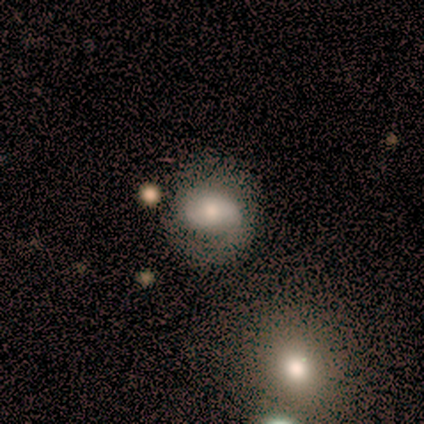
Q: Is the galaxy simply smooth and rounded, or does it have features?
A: smooth — 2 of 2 (100%).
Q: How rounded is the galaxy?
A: in between — 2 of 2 (100%).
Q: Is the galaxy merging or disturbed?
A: none — 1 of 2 (50%, tied with minor disturbance).